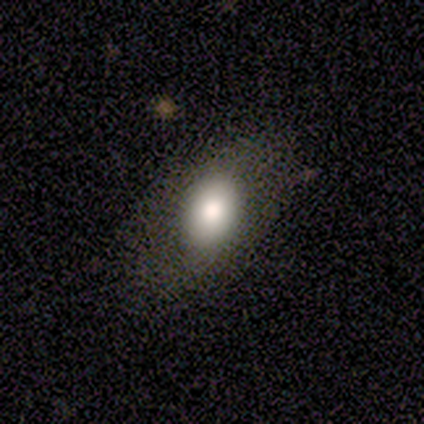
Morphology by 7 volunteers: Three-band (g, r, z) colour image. It shows a smooth galaxy with no disk features (86%) that is in between round and cigar-shaped (100%). Merging: none (86%).